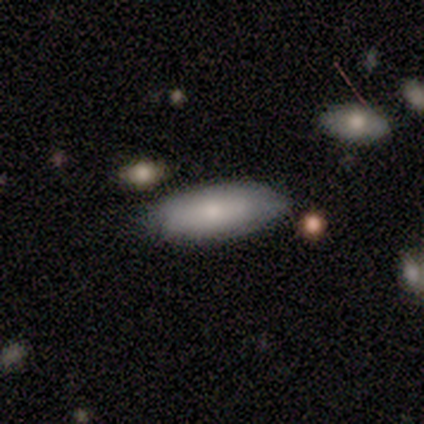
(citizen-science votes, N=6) Overall: smooth (83%). How rounded: in between (80%). Merging: none (67%; minor disturbance 33%).